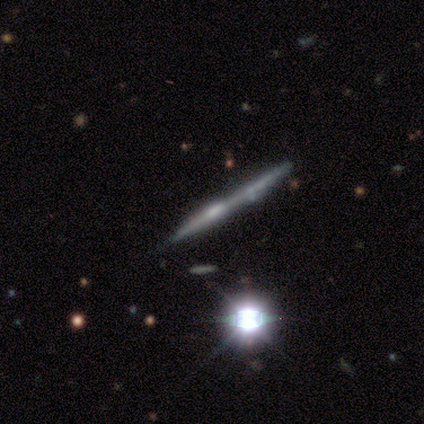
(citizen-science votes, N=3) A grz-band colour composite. It shows a featured or disk galaxy (67%) viewed edge-on (50%, tied with no) with a boxy central bulge (100%). Merging: major disturbance (100%).